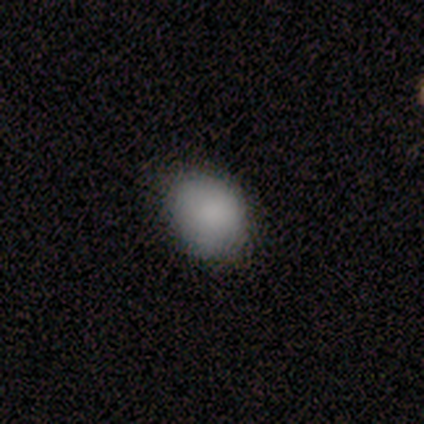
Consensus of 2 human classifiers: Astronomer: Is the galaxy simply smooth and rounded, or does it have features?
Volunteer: smooth — 50%, tied with star or artifact at 50%.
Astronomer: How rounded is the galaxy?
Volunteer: round — 100%.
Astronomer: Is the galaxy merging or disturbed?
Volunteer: minor disturbance — 100%.